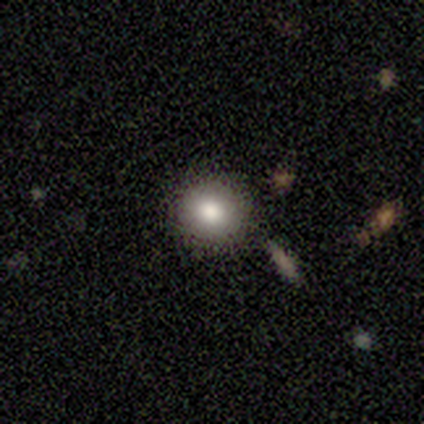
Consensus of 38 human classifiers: Q: Smooth or featured?
A: smooth (74%); runner-up: star or artifact (16%)
Q: How rounded?
A: round (100%)
Q: Merging?
A: none (88%); runner-up: merger (6%)